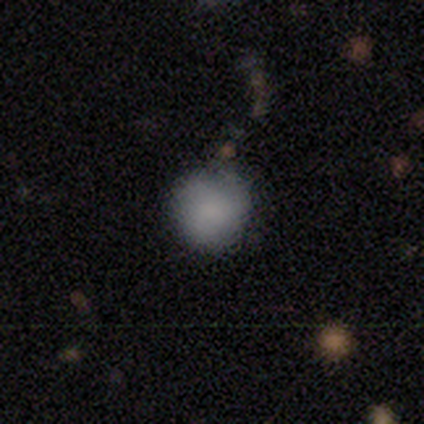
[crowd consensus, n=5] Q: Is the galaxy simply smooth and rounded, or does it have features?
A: smooth — 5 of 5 (100%).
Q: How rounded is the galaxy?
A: round — 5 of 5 (100%).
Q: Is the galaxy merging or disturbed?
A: none — 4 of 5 (80%).